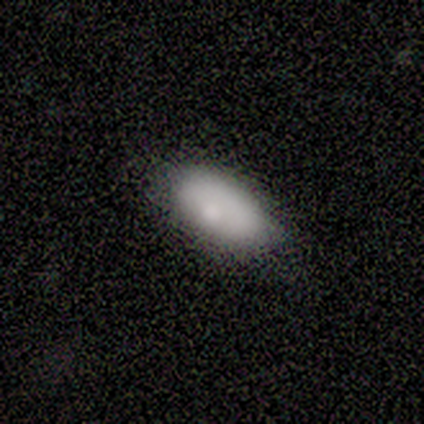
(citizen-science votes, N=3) Q: Smooth or featured?
A: smooth (67%); runner-up: featured or disk (33%)
Q: How rounded?
A: in between (100%)
Q: Merging?
A: none (67%); runner-up: minor disturbance (33%)